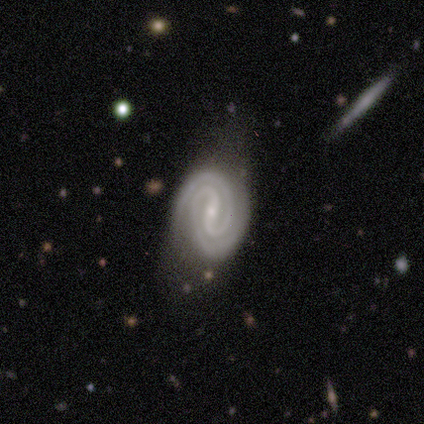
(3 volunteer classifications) Smooth or featured: featured or disk — 100%
Edge-on disk: no — 67% (yes — 33%)
Bar: strong — 50% (tied with weak — 50%)
Spiral arms: yes — 100%
Spiral winding: tight — 100%
Spiral arm count: 2 — 100%
Bulge size: moderate — 50% (tied with small — 50%)
Merging: none — 67% (minor disturbance — 33%)